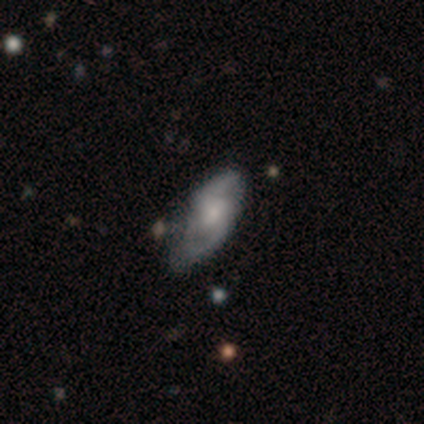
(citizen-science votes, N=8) This is clearly a featured or disk galaxy (88%). It is likely not viewed edge-on (71%). Bar: likely no (60%). Spiral arm pattern: clearly yes (80%). Spiral arm count: clearly 2 (100%). Spiral winding: possibly loose (50%). Central bulge: marginally moderate (40%). Merging: clearly none (88%).